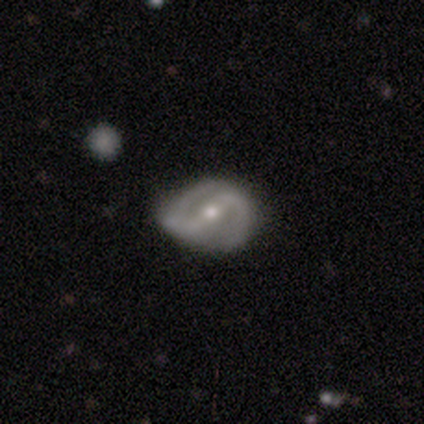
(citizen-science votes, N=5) A featured or disk galaxy (80%) with a strong bar (75%), 2 (100%) medium (67%) spiral arms (75%) and a small central bulge (75%).

Vote fractions:
- Smooth or featured? featured or disk: 80% / smooth: 20% / star or artifact: 0%
- Edge-on disk? no: 100% / yes: 0%
- Bar? strong: 75% / weak: 25% / no: 0%
- Spiral arms? yes: 75% / no: 25%
- Spiral winding? medium: 67% / loose: 33% / tight: 0%
- Spiral arm count? 2: 100% / 1: 0% / 3: 0% / 4: 0% / more than 4: 0% / can't tell: 0%
- Bulge size? small: 75% / moderate: 25% / dominant: 0% / large: 0% / none: 0%
- Merging? none: 100% / minor disturbance: 0% / major disturbance: 0% / merger: 0%